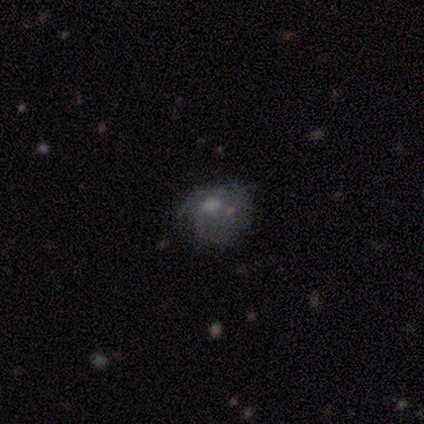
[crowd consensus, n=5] This is likely a smooth galaxy (60%). How rounded: likely round (67%). Merging: marginally none (40%, tied with major disturbance).